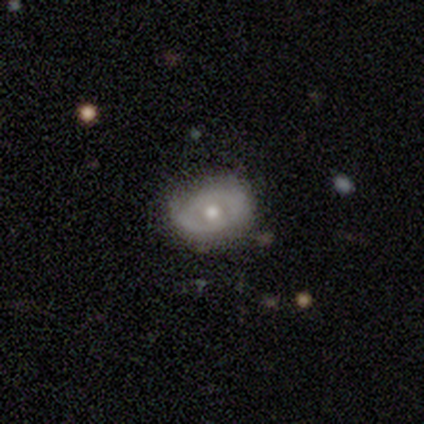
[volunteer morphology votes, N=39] Q: Smooth or featured?
A: featured or disk (62%); runner-up: smooth (31%)
Q: Edge-on disk?
A: no (96%); runner-up: yes (4%)
Q: Bar?
A: no (87%); runner-up: weak (13%)
Q: Spiral arms?
A: no (83%); runner-up: yes (17%)
Q: Bulge size?
A: moderate (70%); runner-up: small (30%)
Q: Merging?
A: none (61%); runner-up: minor disturbance (31%)